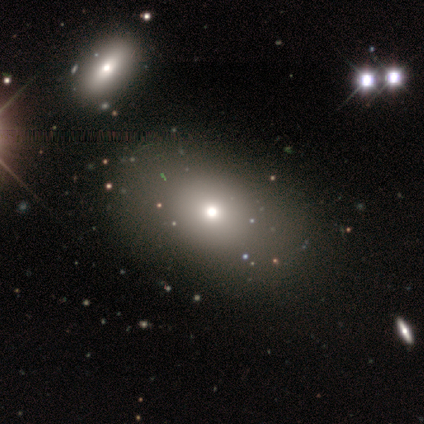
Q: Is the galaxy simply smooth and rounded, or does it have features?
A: smooth — 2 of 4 (50%).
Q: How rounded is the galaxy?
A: round — 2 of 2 (100%).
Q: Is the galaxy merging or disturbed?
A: none — 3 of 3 (100%).